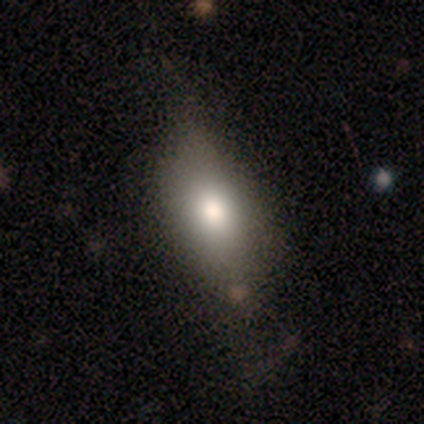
Morphology: type=smooth (80%); roundness=in between (50%, tied with cigar-shaped); merging=major disturbance (50%).